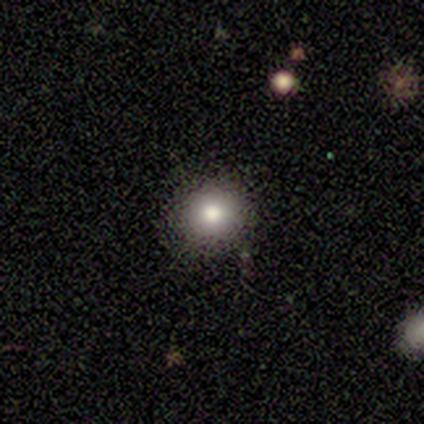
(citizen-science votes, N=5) Overall: smooth (80%). How rounded: round (100%). Merging: none (100%).